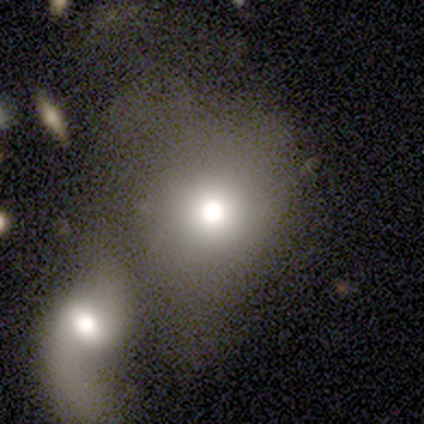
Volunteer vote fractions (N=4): Morphology: type=star or artifact (50%).